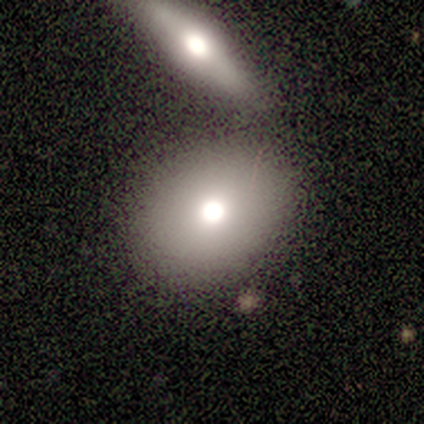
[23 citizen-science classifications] Overall: smooth (74%). How rounded: in between (53%; round 47%). Merging: merger (50%).